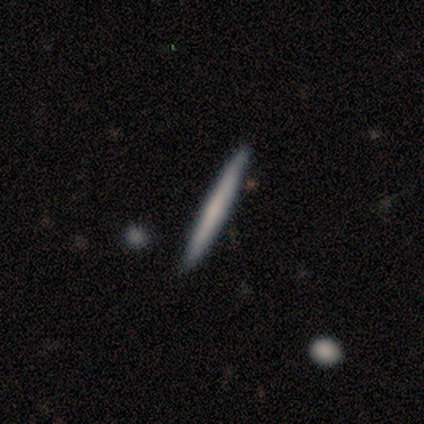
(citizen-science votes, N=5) smooth 60%, featured or disk 40%, star or artifact 0%. Down the decision tree: how rounded — cigar-shaped (100%); merging — none (80%).